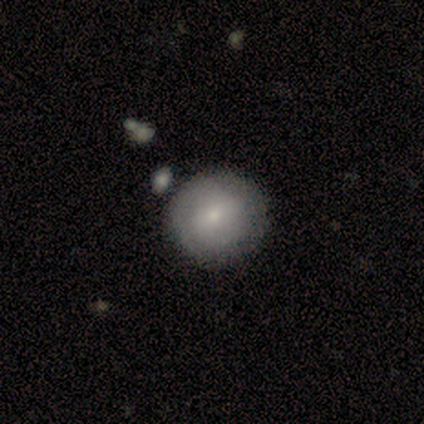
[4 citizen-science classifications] Q: Smooth or featured?
A: smooth (50%); tied with: featured or disk (50%)
Q: How rounded?
A: round (100%)
Q: Merging?
A: none (75%); runner-up: minor disturbance (25%)